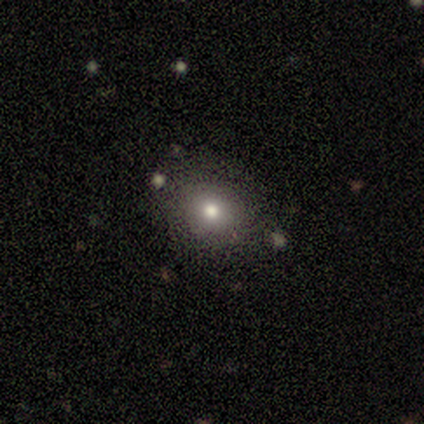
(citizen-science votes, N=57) This appears to be a smooth galaxy with no disk features (65%) that is round (57%). Merging: none (80%).